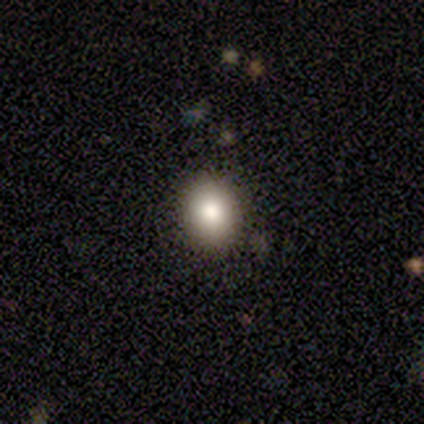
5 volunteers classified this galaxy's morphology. This is clearly a smooth galaxy (80%). How rounded: possibly round (50%, tied with in between). Merging: clearly none (100%).